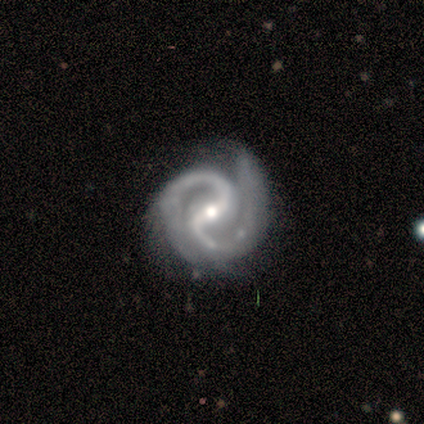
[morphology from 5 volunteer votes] A featured or disk galaxy (100%) with a strong bar (60%), 2 (100%) tight (40%, tied with medium) spiral arms (100%) and a moderate central bulge (60%).

Vote fractions:
- Smooth or featured? featured or disk: 100% / smooth: 0% / star or artifact: 0%
- Edge-on disk? no: 100% / yes: 0%
- Bar? strong: 60% / weak: 40% / no: 0%
- Spiral arms? yes: 100% / no: 0%
- Spiral winding? tight: 40% (tied) / medium: 40% (tied) / loose: 20%
- Spiral arm count? 2: 100% / 1: 0% / 3: 0% / 4: 0% / more than 4: 0% / can't tell: 0%
- Bulge size? moderate: 60% / large: 20% / small: 20% / dominant: 0% / none: 0%
- Merging? none: 100% / minor disturbance: 0% / major disturbance: 0% / merger: 0%